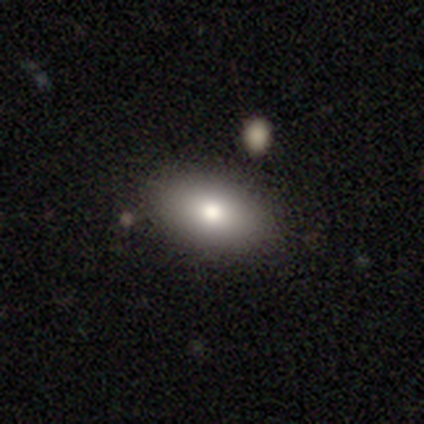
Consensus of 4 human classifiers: Smooth or featured?
  - smooth: 50% * (tied)
  - featured or disk: 50% * (tied)
  - star or artifact: 0%
How rounded?
  - in between: 50% * (tied)
  - cigar-shaped: 50% * (tied)
  - round: 0%
Merging?
  - none: 100% *
  - minor disturbance: 0%
  - major disturbance: 0%
  - merger: 0%